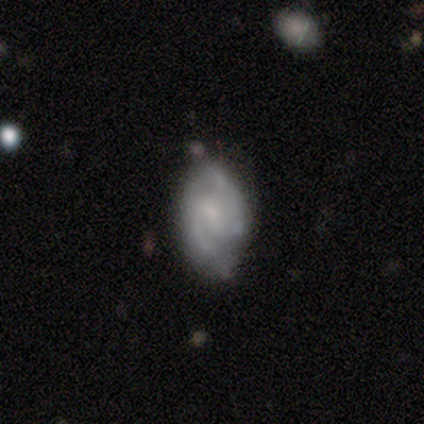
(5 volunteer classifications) smooth_or_featured: featured or disk (p=0.80) [alt: smooth p=0.20]
disk_edge_on: no (p=1.00)
bar: weak (p=0.50) [alt: strong p=0.25]
has_spiral_arms: yes (p=1.00)
spiral_winding: tight (p=0.50) [tied with: loose p=0.50]
spiral_arm_count: 2 (p=1.00)
bulge_size: small (p=0.75) [alt: moderate p=0.25]
merging: none (p=0.60) [alt: minor disturbance p=0.20]